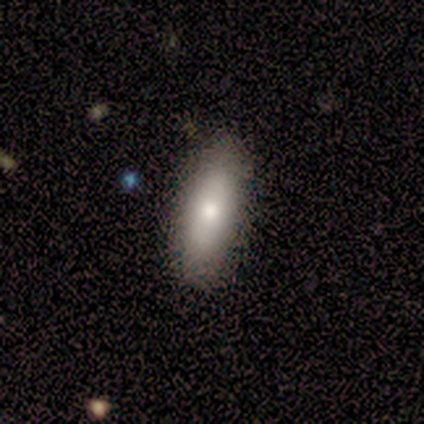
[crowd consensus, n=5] smooth 80%, featured or disk 20%, star or artifact 0%. Down the decision tree: how rounded — in between (75%); merging — none (80%).